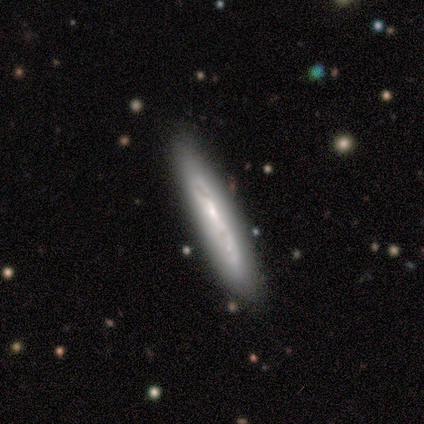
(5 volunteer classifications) This appears to be a featured or disk galaxy (80%) viewed edge-on (100%) with no central bulge (50%, tied with rounded). Merging: none (100%).